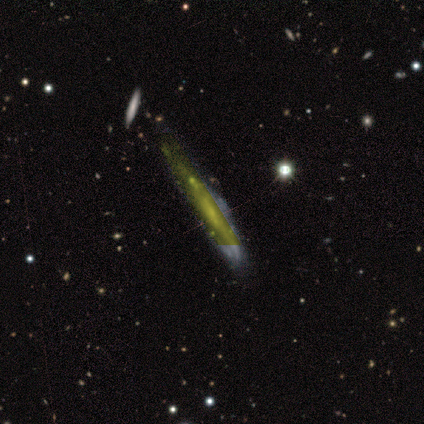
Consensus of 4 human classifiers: This is possibly a featured or disk galaxy (50%). It is clearly viewed edge-on (100%). Edge-on bulge: possibly boxy (50%, tied with rounded). Merging: likely minor disturbance (67%).